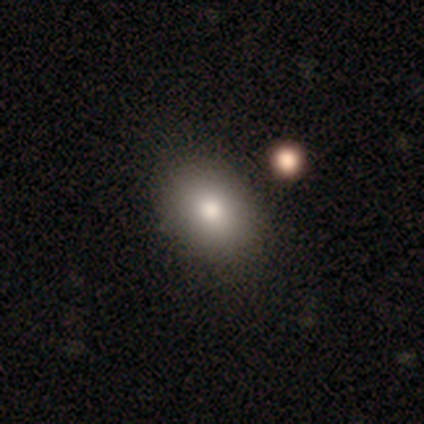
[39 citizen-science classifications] Smooth or featured?
  - smooth: 69% *
  - star or artifact: 18%
  - featured or disk: 13%
How rounded?
  - in between: 59% *
  - round: 41%
  - cigar-shaped: 0%
Merging?
  - none: 81% *
  - minor disturbance: 12%
  - merger: 6%
  - major disturbance: 0%